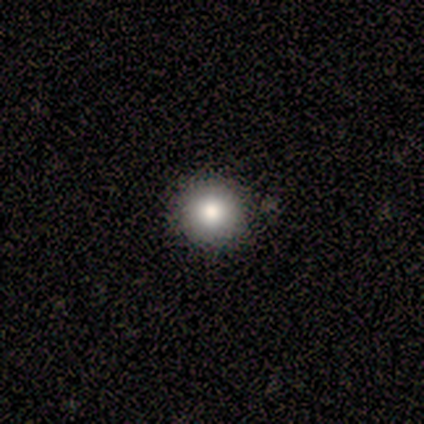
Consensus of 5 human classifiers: Overall: smooth (100%). How rounded: round (100%). Merging: none (100%).